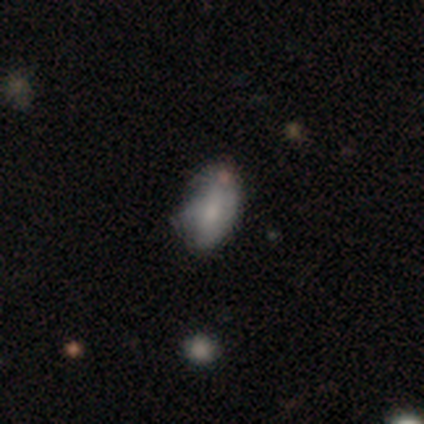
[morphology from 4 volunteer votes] smooth 75%, featured or disk 25%, star or artifact 0%. Down the decision tree: how rounded — in between (100%); merging — none (50%).